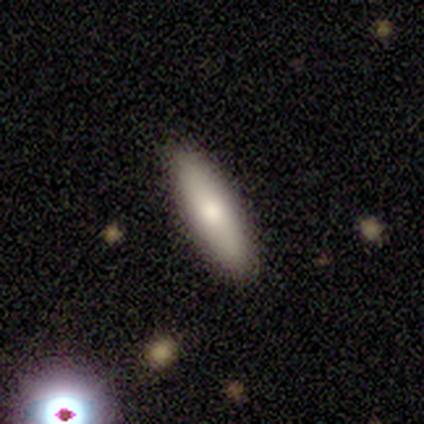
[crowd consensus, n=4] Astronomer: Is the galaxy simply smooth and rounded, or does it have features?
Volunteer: featured or disk — 50%.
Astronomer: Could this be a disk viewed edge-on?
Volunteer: yes — 50%, tied with no at 50%.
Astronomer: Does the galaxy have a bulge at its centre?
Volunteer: rounded — 100%.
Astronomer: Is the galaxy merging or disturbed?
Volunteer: none — 67%.